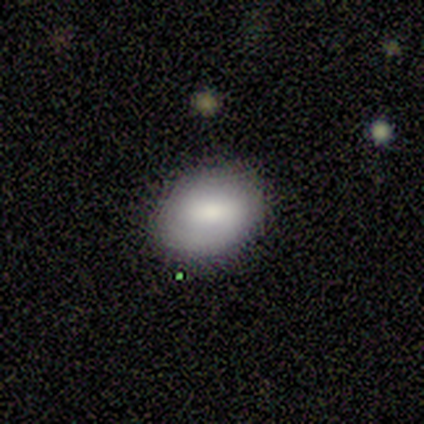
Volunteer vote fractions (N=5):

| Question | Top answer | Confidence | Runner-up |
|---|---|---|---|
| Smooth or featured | smooth | 60% | featured or disk (40%) |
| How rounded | in between | 67% | round (33%) |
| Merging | none | 80% | minor disturbance (20%) |